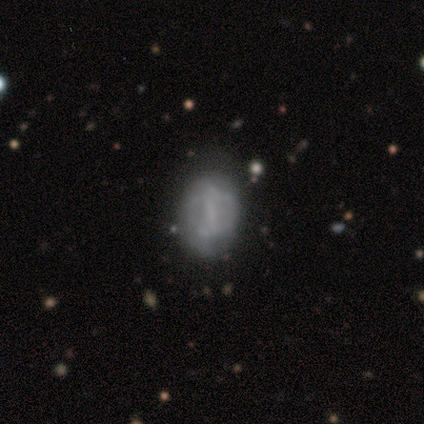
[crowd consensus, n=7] Morphology: type=featured or disk (57%); edge-on=no (100%); bar=weak (50%); spiral arms=no (75%); bulge=none (50%); merging=none (40%, tied with major disturbance).